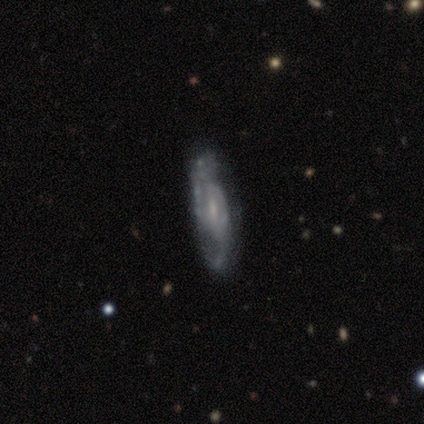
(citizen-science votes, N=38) This appears to be a featured or disk galaxy (92%) with a weak bar (55%), 2 (45%) loose (38%) spiral arms (94%) and a small central bulge (45%). Merging: none (34%).